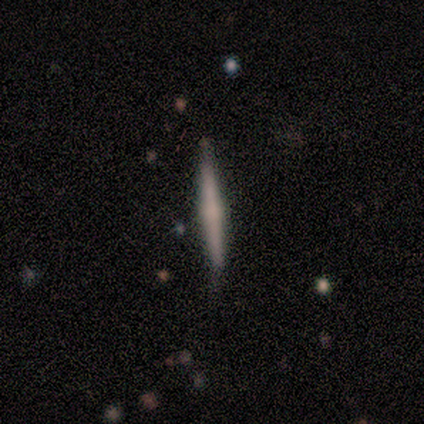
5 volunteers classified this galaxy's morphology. A featured or disk galaxy (80%) viewed edge-on (100%) with a rounded central bulge (50%). Merging: none (100%).